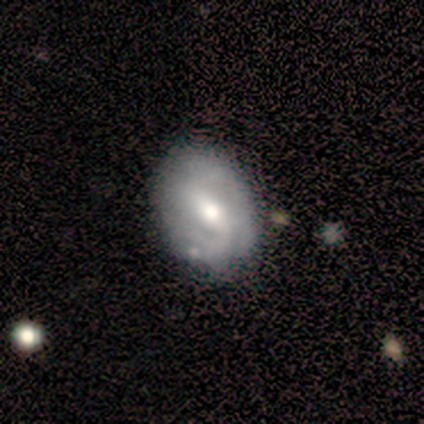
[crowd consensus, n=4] A smooth galaxy with no disk features (50%, tied with featured or disk) that is round (50%, tied with in between). Merging: none (50%, tied with minor disturbance).